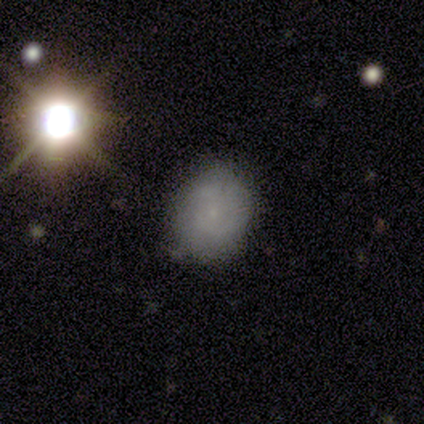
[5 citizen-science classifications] A smooth galaxy with no disk features (80%) that is round (50%, tied with in between). Merging: none (60%).